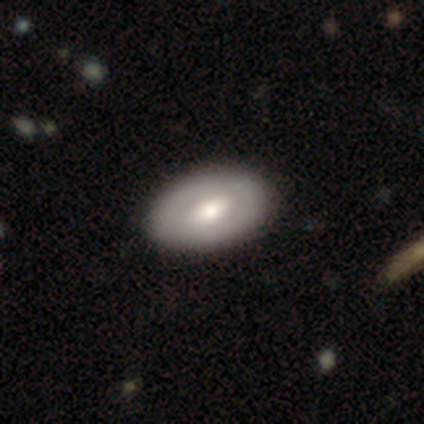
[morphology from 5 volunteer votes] A smooth galaxy with no disk features (80%) that is in between round and cigar-shaped (75%). Merging: none (80%).